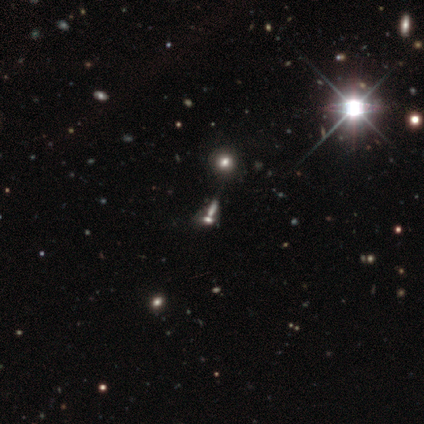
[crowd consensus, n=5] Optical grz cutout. It shows a smooth galaxy with no disk features (40%, tied with star or artifact) that is round (50%, tied with in between). Merging: merger (67%).